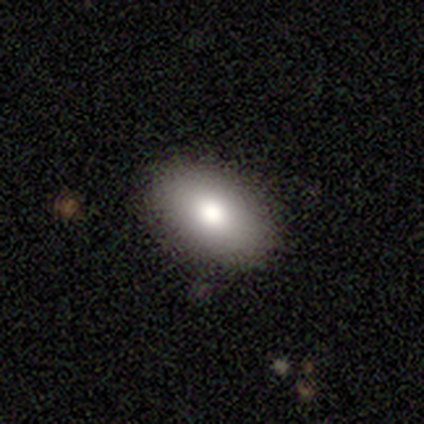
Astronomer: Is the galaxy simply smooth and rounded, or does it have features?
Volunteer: smooth — 97%.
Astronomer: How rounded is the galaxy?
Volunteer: in between — 94%.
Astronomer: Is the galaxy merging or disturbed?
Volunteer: none — 94%.